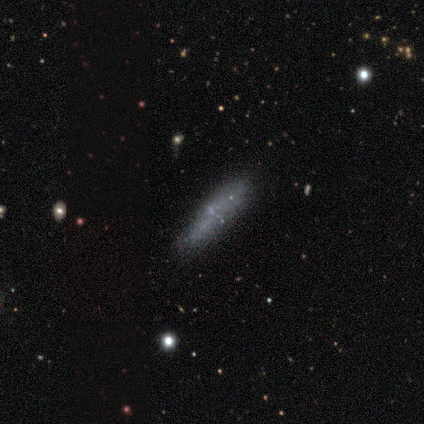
smooth 62%, featured or disk 31%, star or artifact 8%. Down the decision tree: how rounded — cigar-shaped (88%); merging — none (100%).